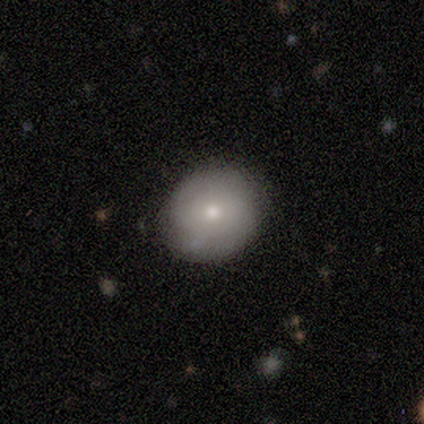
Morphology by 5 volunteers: Smooth or featured? 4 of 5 (80%) said smooth. How rounded? 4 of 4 (100%) said round. Merging? 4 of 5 (80%) said none.